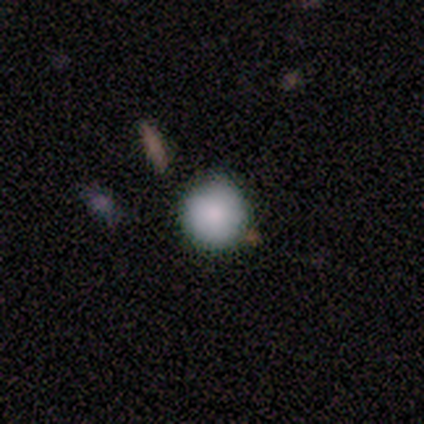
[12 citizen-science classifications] This appears to be a smooth galaxy with no disk features (92%) that is round (100%). Merging: none (92%).